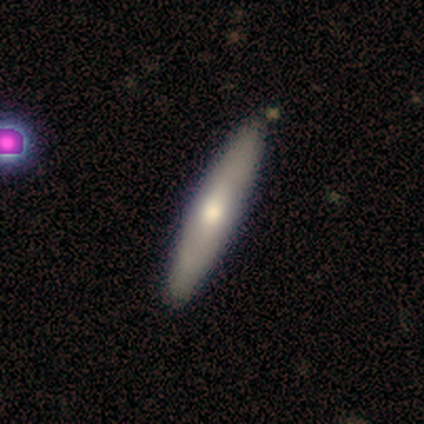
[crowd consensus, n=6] featured or disk 67%, smooth 33%, star or artifact 0%. Down the decision tree: edge-on disk — yes (75%); edge-on bulge — rounded (100%); merging — none (100%).